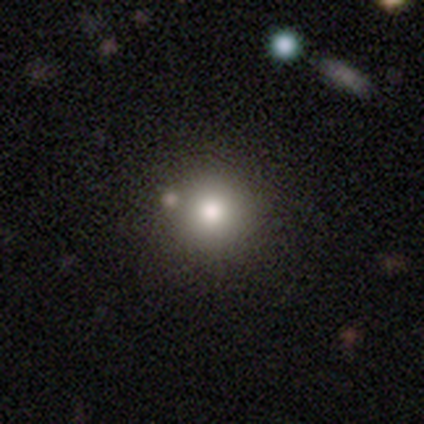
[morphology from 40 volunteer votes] type=smooth (80%); roundness=round (91%); merging=none (47%).